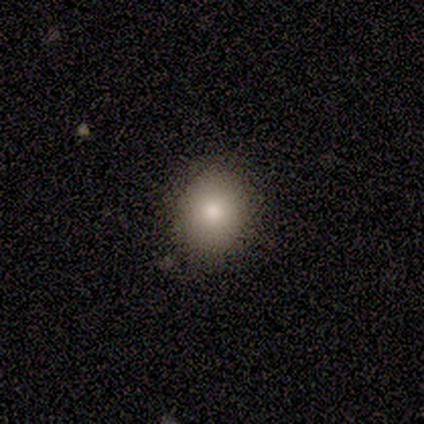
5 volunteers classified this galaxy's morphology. type=smooth (80%); roundness=in between (75%); merging=none (100%).